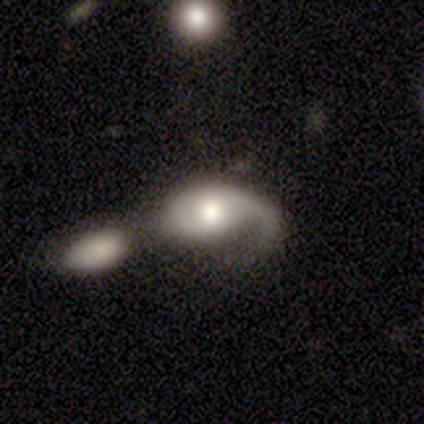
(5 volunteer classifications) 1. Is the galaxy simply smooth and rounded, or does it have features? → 60% featured or disk, 40% star or artifact, 0% smooth.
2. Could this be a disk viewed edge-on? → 100% no, 0% yes.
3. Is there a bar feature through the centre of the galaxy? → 100% no, 0% strong, 0% weak.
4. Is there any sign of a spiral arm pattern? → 67% yes, 33% no.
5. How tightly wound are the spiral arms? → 50% tight (tied), 50% loose (tied), 0% medium.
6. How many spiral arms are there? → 100% 1, 0% 2, 0% 3, 0% 4, 0% more than 4, 0% can't tell.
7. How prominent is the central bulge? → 67% moderate, 33% large, 0% dominant, 0% small, 0% none.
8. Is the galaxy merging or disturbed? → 67% merger, 33% minor disturbance, 0% none, 0% major disturbance.